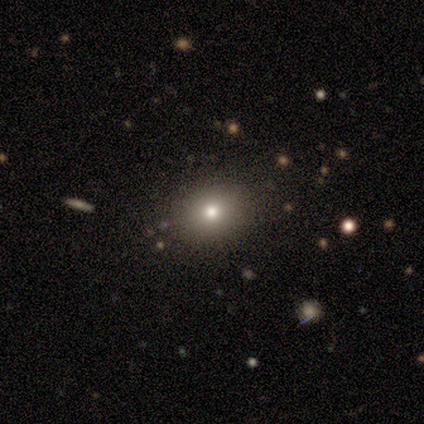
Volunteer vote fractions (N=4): smooth 75%, star or artifact 25%, featured or disk 0%. Down the decision tree: how rounded — in between (67%); merging — none (100%).